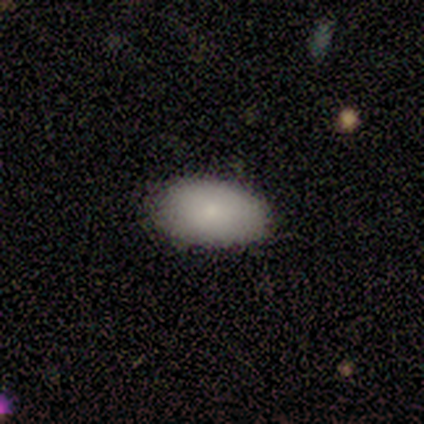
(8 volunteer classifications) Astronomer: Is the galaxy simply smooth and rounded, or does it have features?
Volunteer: smooth — 100%.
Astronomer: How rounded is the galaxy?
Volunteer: in between — 100%.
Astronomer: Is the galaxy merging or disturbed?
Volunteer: none — 100%.